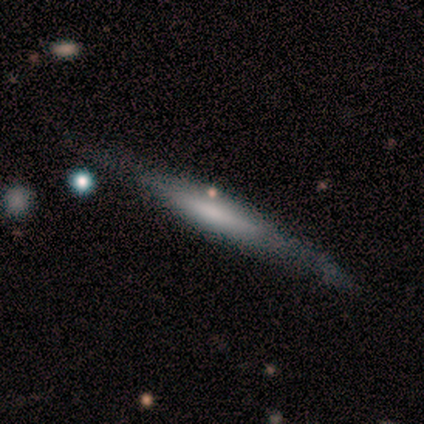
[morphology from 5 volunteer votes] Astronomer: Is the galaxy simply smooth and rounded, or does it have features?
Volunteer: smooth — 80%.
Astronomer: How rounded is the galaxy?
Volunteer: cigar-shaped — 100%.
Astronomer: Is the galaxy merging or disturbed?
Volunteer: none — 60% (runner-up: minor disturbance, 40%).